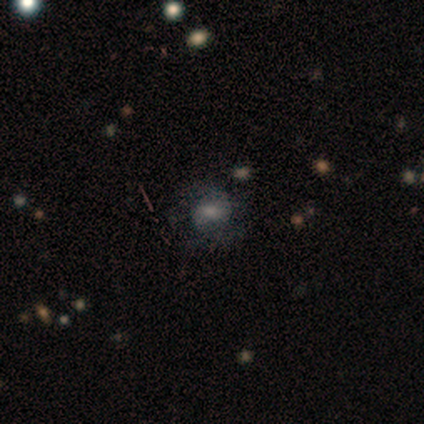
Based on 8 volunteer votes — This is likely a smooth galaxy (62%). How rounded: likely in between (60%). Merging: possibly none (50%).